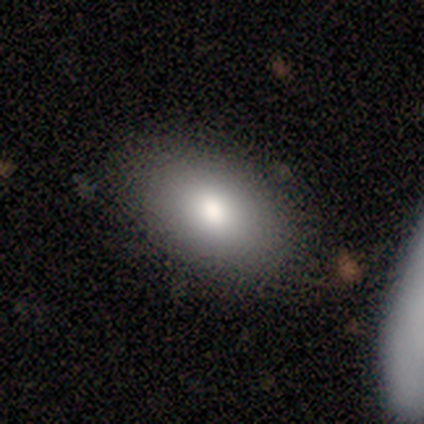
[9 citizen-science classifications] Q: Smooth or featured?
A: smooth (89%); runner-up: star or artifact (11%)
Q: How rounded?
A: in between (100%)
Q: Merging?
A: none (88%); runner-up: minor disturbance (12%)